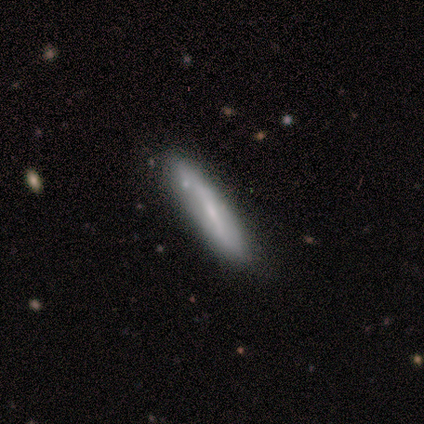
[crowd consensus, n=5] Morphology: type=smooth (40%, tied with star or artifact); roundness=cigar-shaped (100%); merging=none (67%).